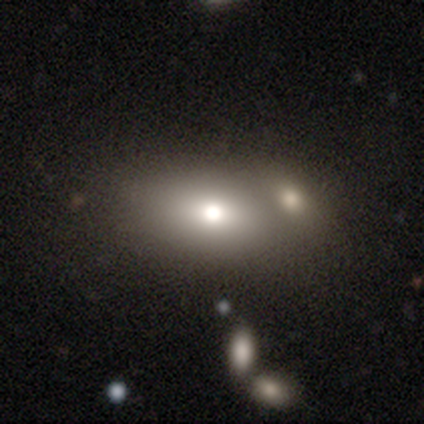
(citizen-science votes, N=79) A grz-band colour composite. It shows a smooth galaxy with no disk features (65%) that is in between round and cigar-shaped (90%). Merging: merger (51%).